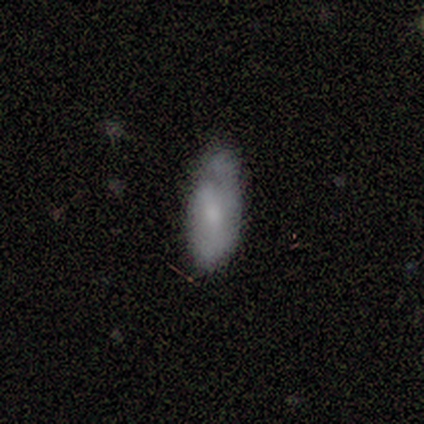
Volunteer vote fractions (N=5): Smooth or featured?
  - featured or disk: 60% *
  - smooth: 40%
  - star or artifact: 0%
Edge-on disk?
  - no: 67% *
  - yes: 33%
Bar?
  - no: 100% *
  - strong: 0%
  - weak: 0%
Spiral arms?
  - yes: 50% * (tied)
  - no: 50% * (tied)
Spiral winding?
  - tight: 100% *
  - medium: 0%
  - loose: 0%
Spiral arm count?
  - 1: 100% *
  - 2: 0%
  - 3: 0%
  - 4: 0%
  - more than 4: 0%
  - can't tell: 0%
Bulge size?
  - small: 100% *
  - dominant: 0%
  - large: 0%
  - moderate: 0%
  - none: 0%
Merging?
  - none: 40% * (tied)
  - minor disturbance: 40% * (tied)
  - merger: 20%
  - major disturbance: 0%